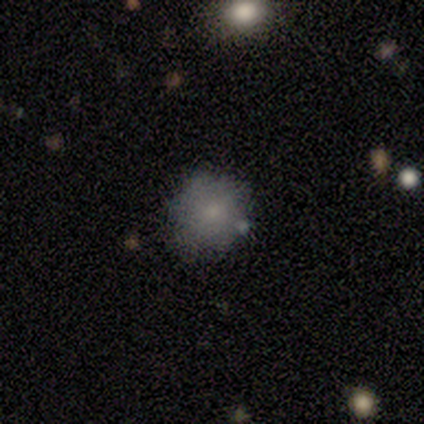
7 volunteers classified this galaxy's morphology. Overall: smooth (86%). How rounded: round (83%). Merging: none (83%).